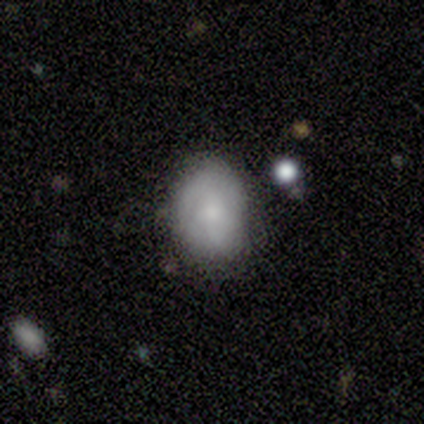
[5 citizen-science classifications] Smooth or featured?
  - smooth: 80% *
  - featured or disk: 20%
  - star or artifact: 0%
How rounded?
  - in between: 100% *
  - round: 0%
  - cigar-shaped: 0%
Merging?
  - none: 80% *
  - minor disturbance: 20%
  - major disturbance: 0%
  - merger: 0%